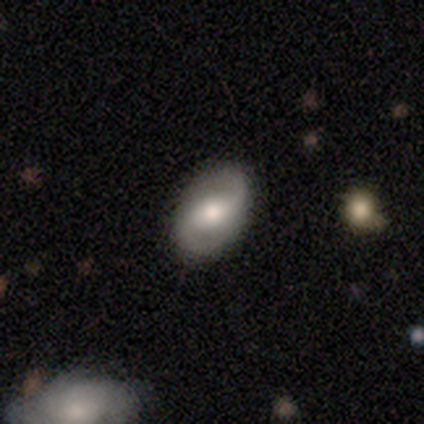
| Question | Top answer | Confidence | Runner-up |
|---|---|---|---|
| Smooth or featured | featured or disk | 100% | — |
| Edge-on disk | no | 100% | — |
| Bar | weak | 40% | tied: no (40%) |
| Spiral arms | yes | 80% | no (20%) |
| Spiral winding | tight | 50% | medium (25%) |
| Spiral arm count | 2 | 100% | — |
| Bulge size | moderate | 80% | large (20%) |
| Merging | none | 100% | — |